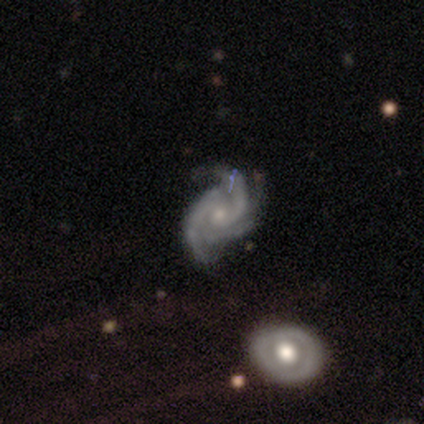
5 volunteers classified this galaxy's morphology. Volunteers were most divided on "spiral winding": tight: 60%, medium: 40%, loose: 0%. Remaining: smooth or featured — featured or disk (100%); edge-on disk — no (100%); bar — no (100%); spiral arms — yes (100%); bulge size — small (80%); merging — none (60%); spiral arm count — 3 (40%).